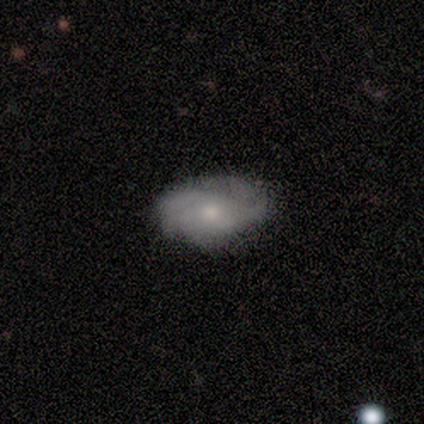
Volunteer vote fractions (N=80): This appears to be a featured or disk galaxy (48%) with no bar (89%), tight (42%) spiral arms (87%) and a small central bulge (53%). Merging: none (47%).